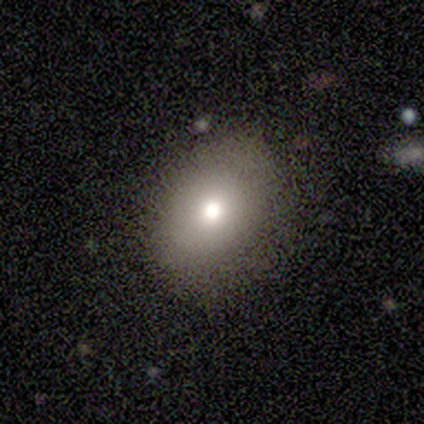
A smooth galaxy with no disk features (80%) that is in between round and cigar-shaped (75%).

Vote fractions:
- Smooth or featured? smooth: 80% / star or artifact: 20% / featured or disk: 0%
- How rounded? in between: 75% / round: 25% / cigar-shaped: 0%
- Merging? none: 100% / minor disturbance: 0% / major disturbance: 0% / merger: 0%